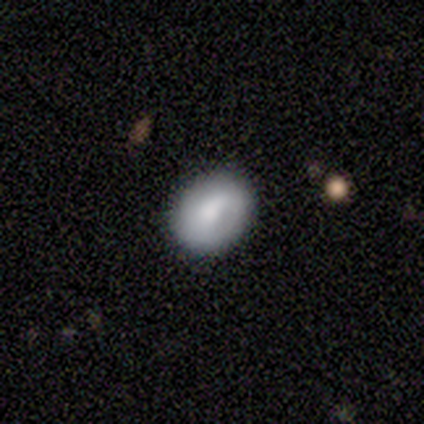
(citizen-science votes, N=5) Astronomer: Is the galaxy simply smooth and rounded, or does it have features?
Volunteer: smooth — 80%.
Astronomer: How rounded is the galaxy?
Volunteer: round — 50%, tied with in between at 50%.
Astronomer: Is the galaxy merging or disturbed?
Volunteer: none — 100%.